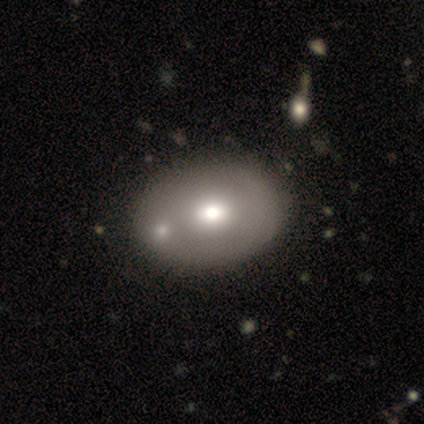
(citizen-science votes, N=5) A smooth galaxy with no disk features (80%) that is in between round and cigar-shaped (100%). Merging: none (100%).